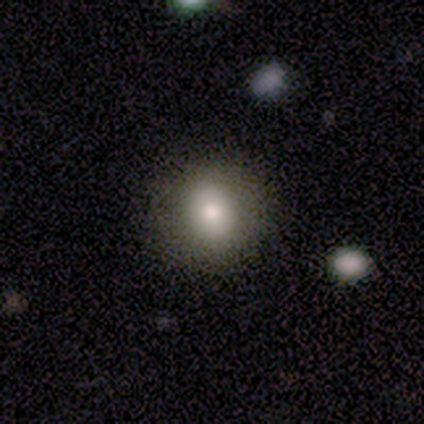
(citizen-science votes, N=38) Volunteers were most divided on "smooth or featured": smooth: 71%, featured or disk: 18%, star or artifact: 11%. More confident: merging — none (85%); how rounded — round (78%).